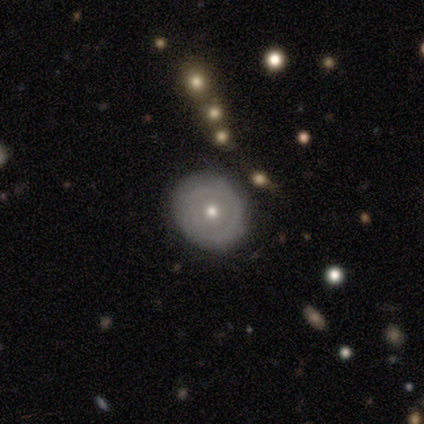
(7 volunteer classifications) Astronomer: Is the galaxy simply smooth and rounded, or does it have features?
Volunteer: smooth — 71%.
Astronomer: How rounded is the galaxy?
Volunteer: round — 100%.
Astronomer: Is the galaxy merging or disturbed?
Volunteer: none — 57% (runner-up: minor disturbance, 43%).